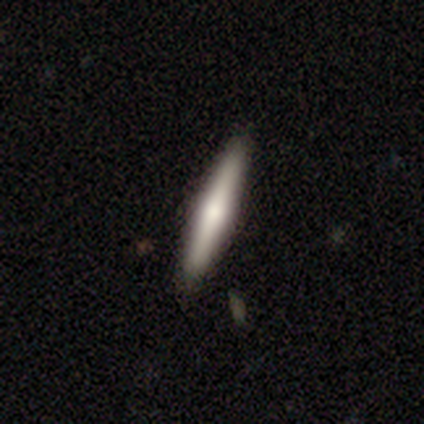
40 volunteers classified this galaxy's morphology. type=featured or disk (62%); edge-on=yes (100%); edge-on bulge=rounded (84%); merging=none (90%).